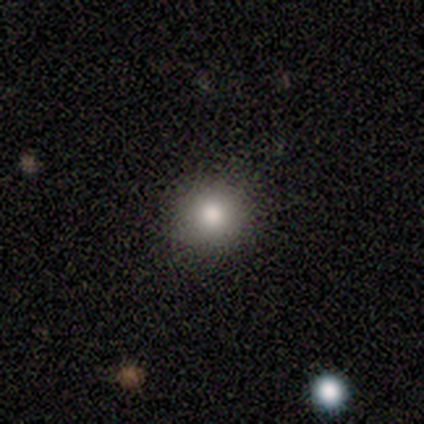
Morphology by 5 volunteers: Smooth or featured?
  - star or artifact: 60% *
  - smooth: 40%
  - featured or disk: 0%